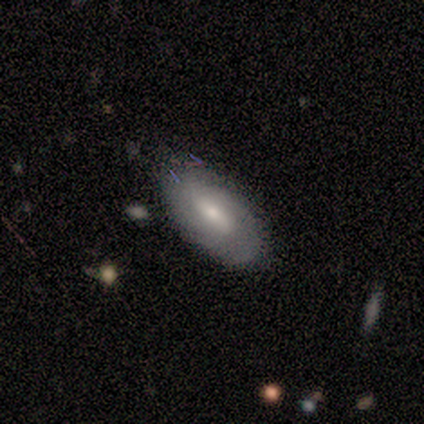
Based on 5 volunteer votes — This is clearly a smooth galaxy (80%). How rounded: clearly in between (100%). Merging: clearly none (80%).